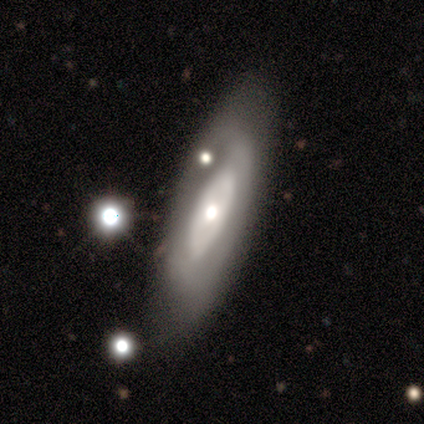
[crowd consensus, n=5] Smooth or featured? featured or disk (60%)
Edge-on disk? no (100%)
Bar? no (100%)
Spiral arms? no (67%)
Bulge size? large (67%)
Merging? none (100%)